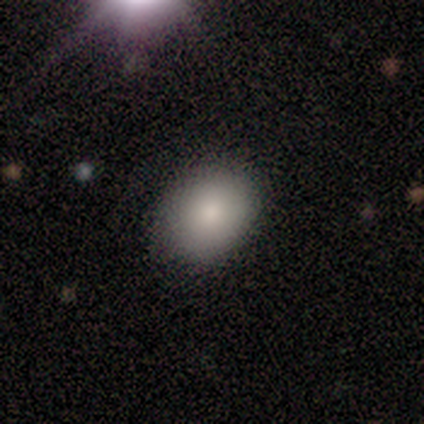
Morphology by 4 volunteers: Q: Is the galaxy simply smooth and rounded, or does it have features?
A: smooth — 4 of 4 (100%).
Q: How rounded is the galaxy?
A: in between — 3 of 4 (75%).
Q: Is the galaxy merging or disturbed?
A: none — 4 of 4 (100%).